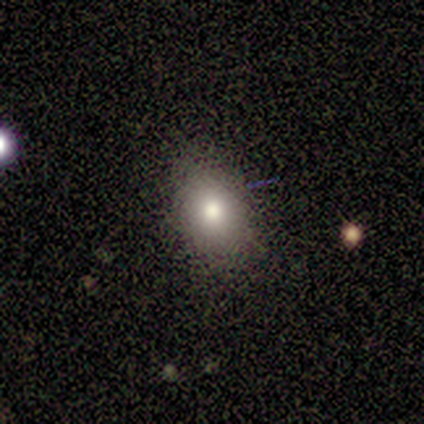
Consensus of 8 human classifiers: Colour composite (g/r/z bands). It shows a smooth galaxy with no disk features (88%) that is in between round and cigar-shaped (86%). Merging: none (86%).